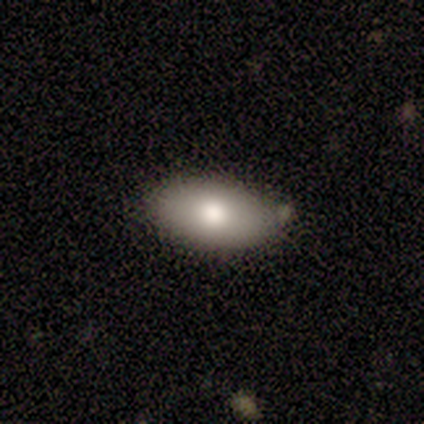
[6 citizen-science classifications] Smooth or featured: smooth — 83% (featured or disk — 17%)
How rounded: in between — 100%
Merging: none — 67% (minor disturbance — 33%)